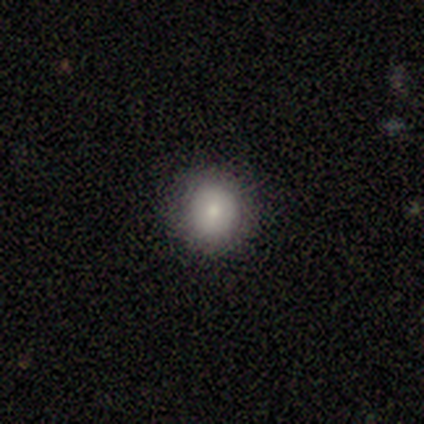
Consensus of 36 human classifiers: smooth-or-featured: smooth: 78% | featured or disk: 11% | star or artifact: 11%
  how-rounded: round: 93% | in between: 7% | cigar-shaped: 0%
  merging: none: 97% | minor disturbance: 3% | major disturbance: 0% | merger: 0%